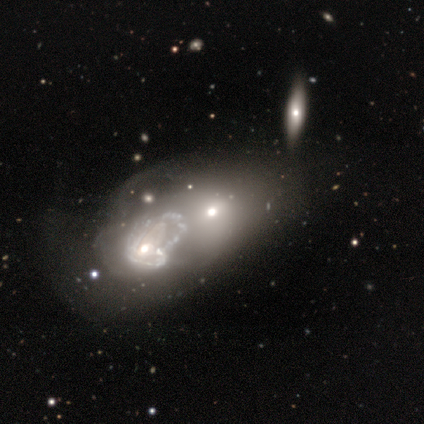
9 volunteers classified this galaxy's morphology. This is marginally a featured or disk galaxy (44%). It is clearly not viewed edge-on (100%). Bar: possibly weak (50%, tied with no). Spiral arm pattern: possibly yes (50%, tied with no). Spiral arm count: possibly 2 (50%, tied with can't tell). Spiral winding: possibly tight (50%, tied with medium). Central bulge: possibly moderate (50%). Merging: likely merger (67%).